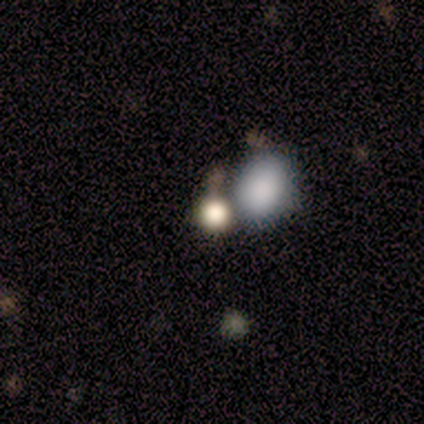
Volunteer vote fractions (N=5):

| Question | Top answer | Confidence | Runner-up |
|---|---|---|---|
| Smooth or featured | smooth | 80% | star or artifact (20%) |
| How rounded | round | 75% | in between (25%) |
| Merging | merger | 50% | minor disturbance (25%) |